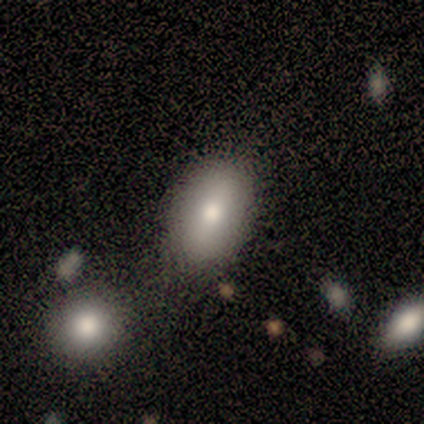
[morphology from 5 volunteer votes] This is clearly a smooth galaxy (100%). How rounded: clearly in between (100%). Merging: clearly none (100%).